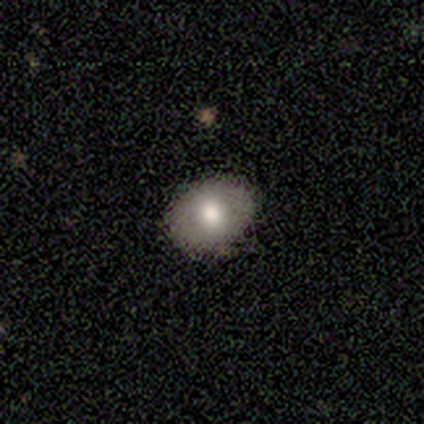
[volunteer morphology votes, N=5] A smooth galaxy with no disk features (80%) that is round (75%).

Vote fractions:
- Smooth or featured? smooth: 80% / featured or disk: 20% / star or artifact: 0%
- How rounded? round: 75% / in between: 25% / cigar-shaped: 0%
- Merging? none: 100% / minor disturbance: 0% / major disturbance: 0% / merger: 0%